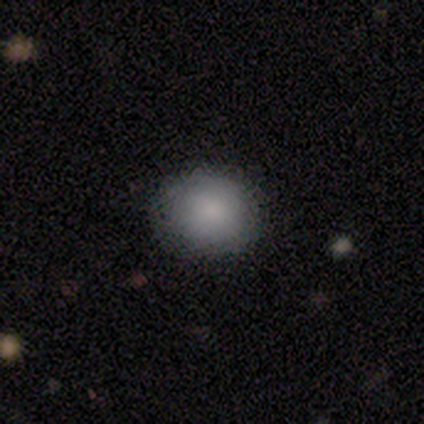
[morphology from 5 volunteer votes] type=smooth (100%); roundness=round (100%); merging=none (80%).